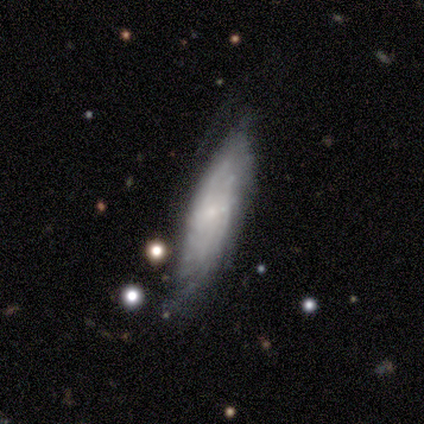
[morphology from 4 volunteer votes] Smooth or featured: featured or disk — 100%
Edge-on disk: no — 75% (yes — 25%)
Bar: weak — 67% (no — 33%)
Spiral arms: yes — 67% (no — 33%)
Spiral winding: tight — 100%
Spiral arm count: can't tell — 100%
Bulge size: none — 67% (moderate — 33%)
Merging: minor disturbance — 50% (tied with major disturbance — 50%)